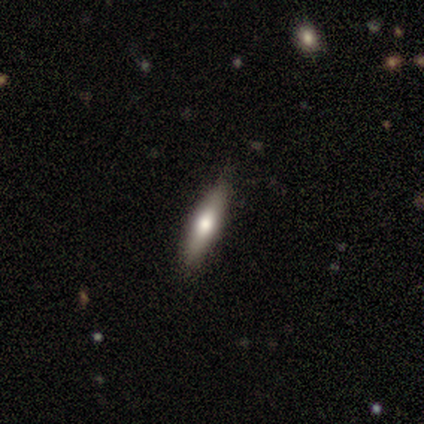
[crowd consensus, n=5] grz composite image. It shows a smooth galaxy with no disk features (60%) that is cigar-shaped (67%). Merging: none (100%).